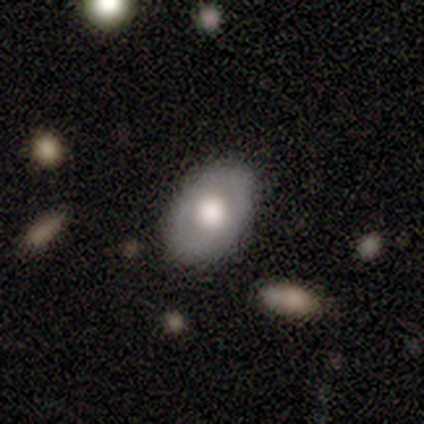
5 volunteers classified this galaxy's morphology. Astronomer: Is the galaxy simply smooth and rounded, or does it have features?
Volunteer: featured or disk — 60% (runner-up: smooth, 40%).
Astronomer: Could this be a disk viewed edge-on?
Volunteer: no — 67%.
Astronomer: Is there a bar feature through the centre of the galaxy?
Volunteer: no — 100%.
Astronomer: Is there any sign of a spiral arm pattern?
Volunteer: no — 100%.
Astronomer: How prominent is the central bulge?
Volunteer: large — 100%.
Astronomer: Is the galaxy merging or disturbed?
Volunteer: none — 100%.